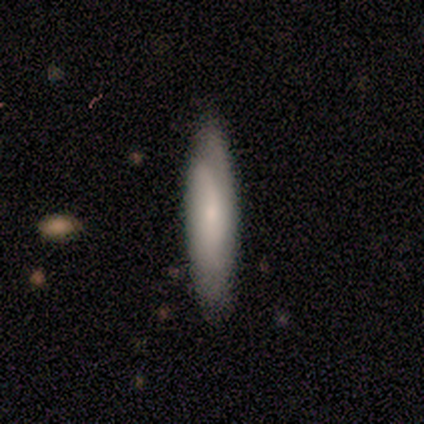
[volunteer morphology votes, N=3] Q: Smooth or featured?
A: smooth (67%); runner-up: featured or disk (33%)
Q: How rounded?
A: cigar-shaped (100%)
Q: Merging?
A: minor disturbance (67%); runner-up: none (33%)